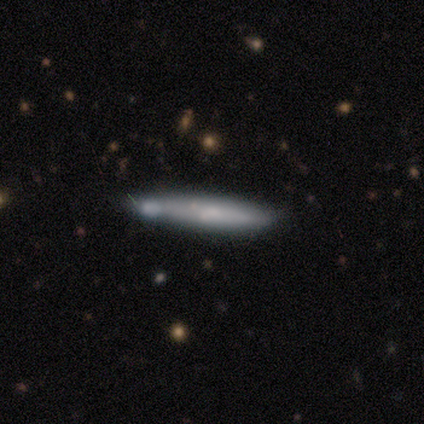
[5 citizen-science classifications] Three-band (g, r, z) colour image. It shows a smooth galaxy with no disk features (60%) that is cigar-shaped (67%). Merging: none (80%).